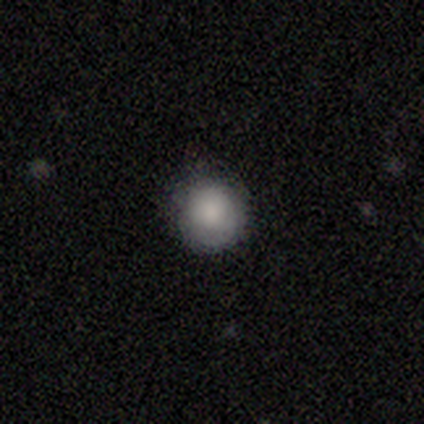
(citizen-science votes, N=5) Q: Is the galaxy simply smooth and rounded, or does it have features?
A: smooth — 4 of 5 (80%).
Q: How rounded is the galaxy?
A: round — 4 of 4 (100%).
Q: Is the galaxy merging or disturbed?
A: none — 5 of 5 (100%).